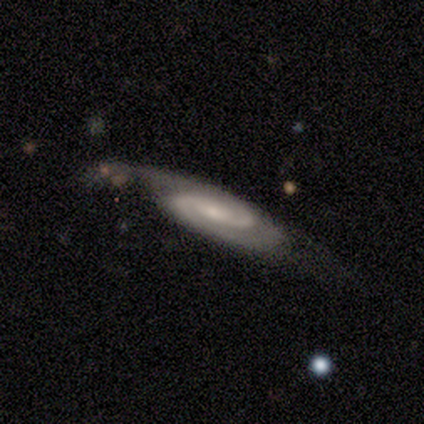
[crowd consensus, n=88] Morphology: type=featured or disk (88%); edge-on=no (88%); bar=no (49%); spiral arms=yes (97%); winding=tight (45%); arm count=2 (85%); bulge=small (57%); merging=none (53%).